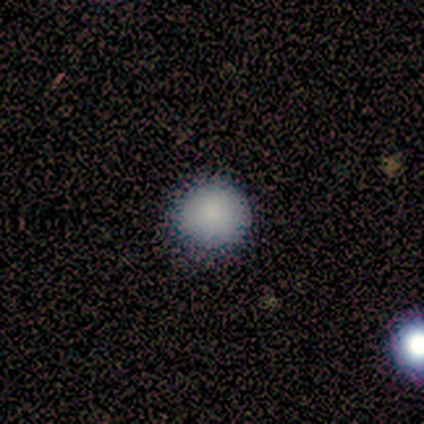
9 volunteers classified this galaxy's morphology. smooth-or-featured: smooth: 100% | featured or disk: 0% | star or artifact: 0%
  how-rounded: round: 89% | in between: 11% | cigar-shaped: 0%
  merging: none: 78% | minor disturbance: 22% | major disturbance: 0% | merger: 0%